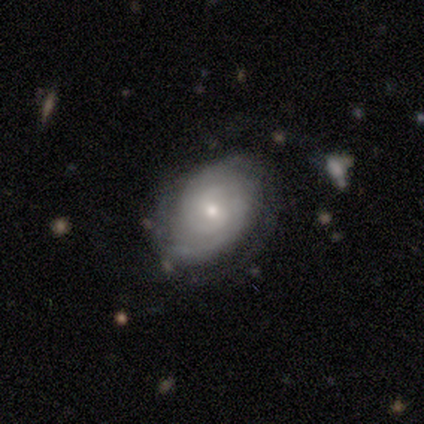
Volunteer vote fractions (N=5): Volunteers were most divided on "merging" (2-way tie): none: 40%, minor disturbance: 40%, merger: 20%, major disturbance: 0%. More confident: smooth or featured — featured or disk (100%); edge-on disk — no (100%); spiral arms — yes (100%); spiral winding — tight (80%); bar — no (60%); bulge size — moderate (60%); spiral arm count — 2 (60%).